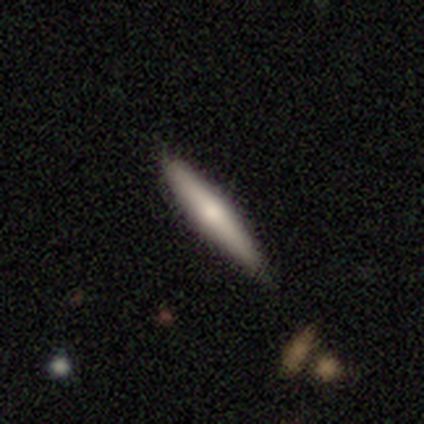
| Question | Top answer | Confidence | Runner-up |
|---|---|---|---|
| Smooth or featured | smooth | 40% | tied: featured or disk (40%) |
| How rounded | cigar-shaped | 100% | — |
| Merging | minor disturbance | 75% | none (25%) |